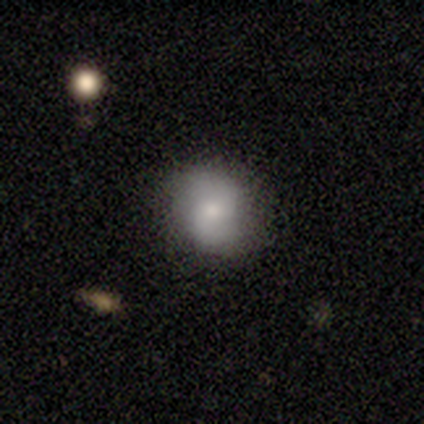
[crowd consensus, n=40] Q: Smooth or featured?
A: smooth (60%); runner-up: featured or disk (38%)
Q: How rounded?
A: round (83%); runner-up: in between (17%)
Q: Merging?
A: none (62%); runner-up: minor disturbance (3%)